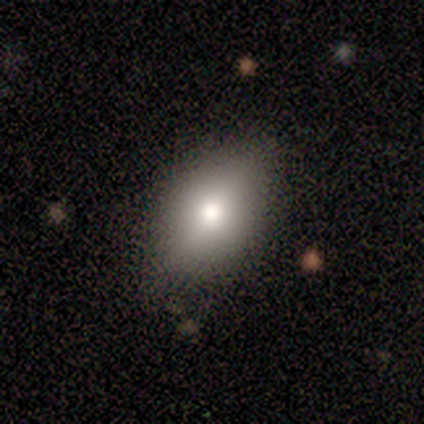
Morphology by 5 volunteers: Smooth or featured? smooth (60%)
How rounded? in between (100%)
Merging? none (80%)